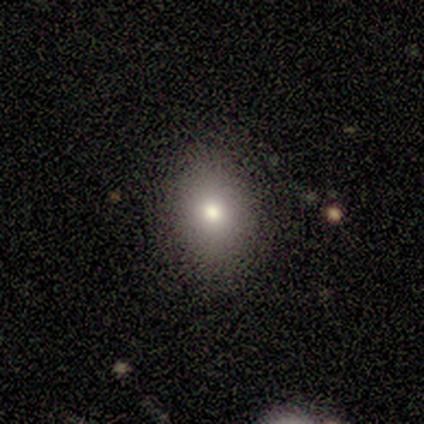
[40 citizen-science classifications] Overall: smooth (70%). How rounded: in between (54%; round 46%). Merging: none (85%).